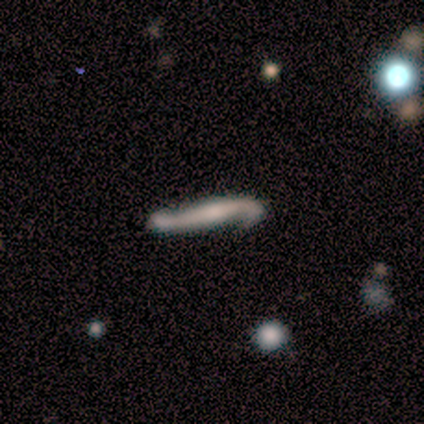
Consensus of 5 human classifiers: This is clearly a featured or disk galaxy (100%). It is likely viewed edge-on (60%). Edge-on bulge: clearly rounded (100%). Merging: clearly none (100%).